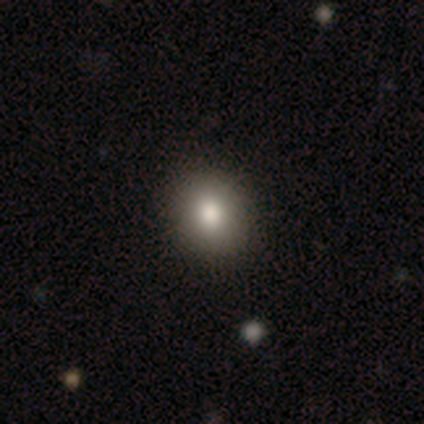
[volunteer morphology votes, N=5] Q: Smooth or featured?
A: smooth (100%)
Q: How rounded?
A: round (60%); runner-up: in between (40%)
Q: Merging?
A: none (60%); runner-up: minor disturbance (20%)